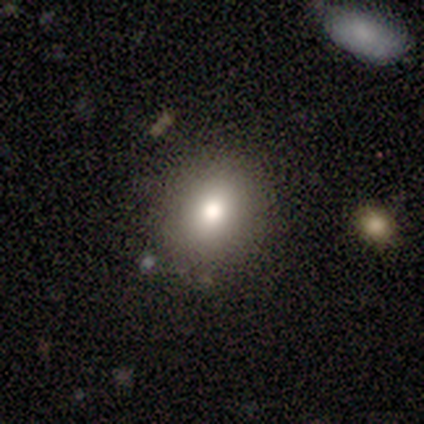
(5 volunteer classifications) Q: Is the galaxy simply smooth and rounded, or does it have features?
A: featured or disk — 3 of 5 (60%).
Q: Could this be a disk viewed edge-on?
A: no — 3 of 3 (100%).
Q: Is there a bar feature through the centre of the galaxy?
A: no — 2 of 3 (67%).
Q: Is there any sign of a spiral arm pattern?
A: no — 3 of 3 (100%).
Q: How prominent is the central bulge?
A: moderate — 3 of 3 (100%).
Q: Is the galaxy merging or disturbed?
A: none — 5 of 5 (100%).